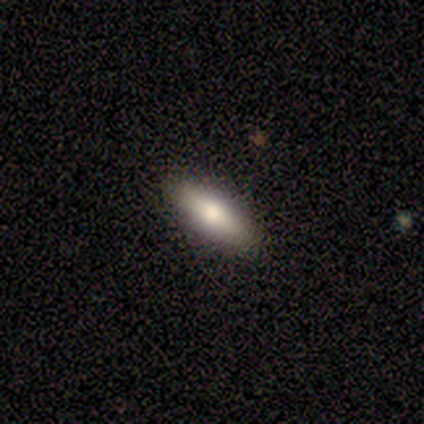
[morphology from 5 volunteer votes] A smooth galaxy with no disk features (60%) that is in between round and cigar-shaped (100%).

Vote fractions:
- Smooth or featured? smooth: 60% / featured or disk: 40% / star or artifact: 0%
- How rounded? in between: 100% / round: 0% / cigar-shaped: 0%
- Merging? none: 80% / minor disturbance: 20% / major disturbance: 0% / merger: 0%